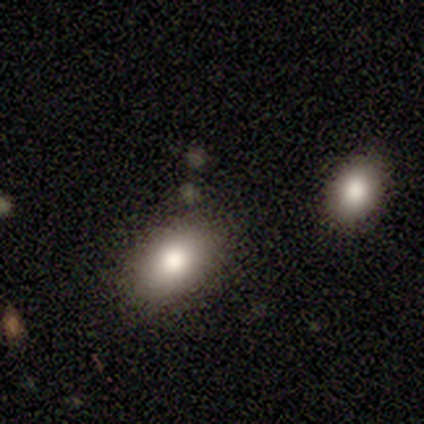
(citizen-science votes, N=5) Smooth or featured: smooth — 80% (star or artifact — 20%)
How rounded: in between — 100%
Merging: none — 50% (minor disturbance — 25%)